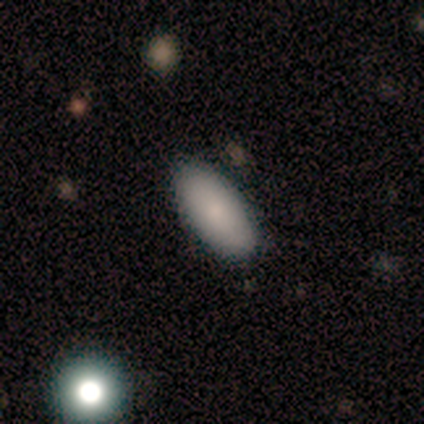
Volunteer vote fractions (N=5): Smooth or featured? smooth (100%)
How rounded? in between (100%)
Merging? none (100%)